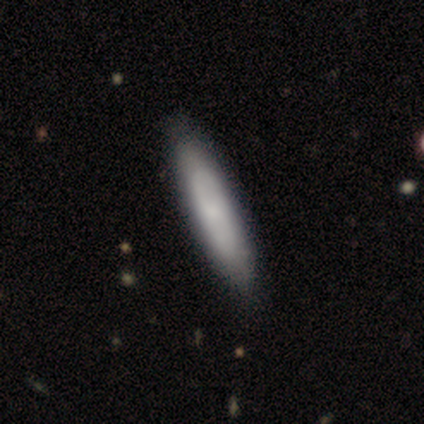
smooth-or-featured: smooth: 80% | featured or disk: 20% | star or artifact: 0%
  how-rounded: cigar-shaped: 100% | round: 0% | in between: 0%
  merging: none: 100% | minor disturbance: 0% | major disturbance: 0% | merger: 0%